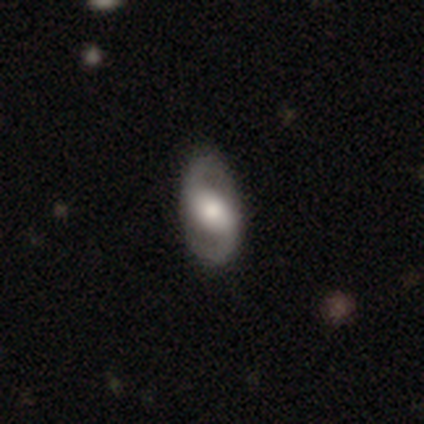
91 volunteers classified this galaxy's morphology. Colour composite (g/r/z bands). It shows a featured or disk galaxy (79%) with a weak bar (38%), 2 (100%) loose (43%) spiral arms (88%) and a moderate central bulge (62%). Merging: none (83%).